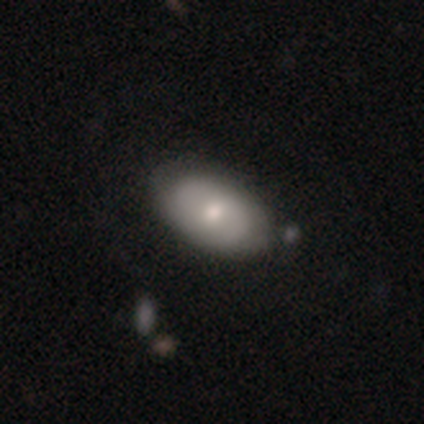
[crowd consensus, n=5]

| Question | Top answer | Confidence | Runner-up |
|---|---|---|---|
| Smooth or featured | featured or disk | 60% | smooth (40%) |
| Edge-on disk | no | 67% | yes (33%) |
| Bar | no | 100% | — |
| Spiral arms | no | 100% | — |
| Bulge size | moderate | 50% | tied: small (50%) |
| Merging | none | 80% | minor disturbance (20%) |